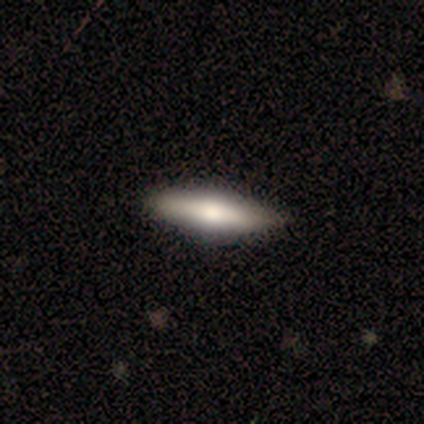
A smooth galaxy with no disk features (57%) that is cigar-shaped (83%).

Vote fractions:
- Smooth or featured? smooth: 57% / featured or disk: 35% / star or artifact: 8%
- How rounded? cigar-shaped: 83% / in between: 17% / round: 0%
- Merging? none: 62% / merger: 3% / minor disturbance: 0% / major disturbance: 0%